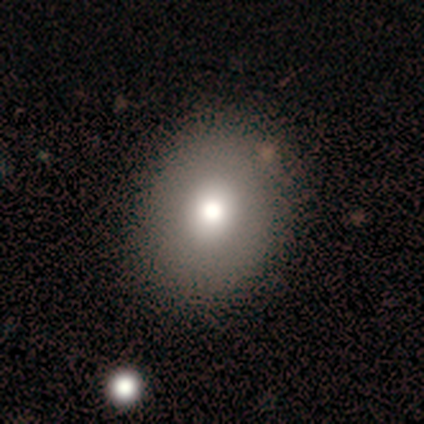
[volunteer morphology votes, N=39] A smooth galaxy with no disk features (74%) that is round (59%). Merging: none (83%).